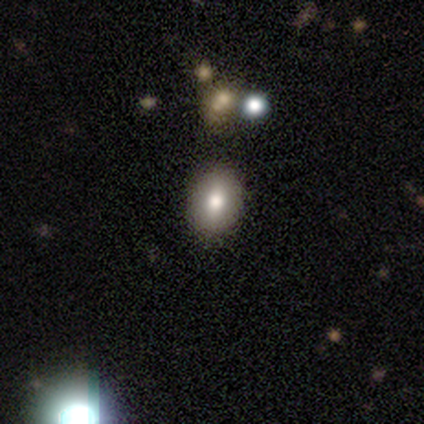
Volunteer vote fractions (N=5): A smooth galaxy with no disk features (100%) that is round (60%).

Vote fractions:
- Smooth or featured? smooth: 100% / featured or disk: 0% / star or artifact: 0%
- How rounded? round: 60% / in between: 40% / cigar-shaped: 0%
- Merging? none: 80% / minor disturbance: 20% / major disturbance: 0% / merger: 0%